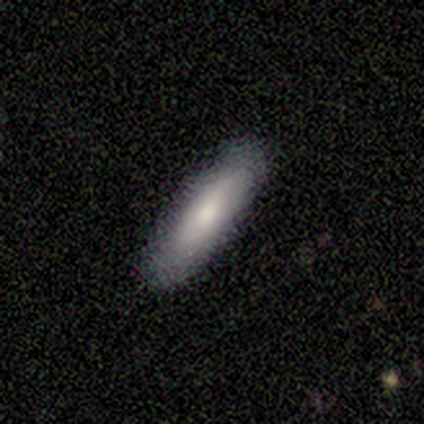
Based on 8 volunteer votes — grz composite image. It shows a smooth galaxy with no disk features (75%) that is cigar-shaped (83%). Merging: none (86%).